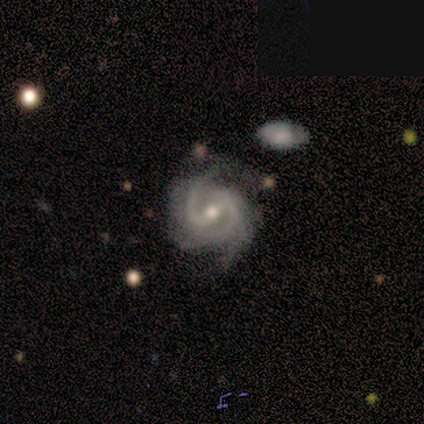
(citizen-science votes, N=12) Q: Smooth or featured?
A: featured or disk (100%)
Q: Edge-on disk?
A: no (100%)
Q: Bar?
A: strong (50%); runner-up: weak (42%)
Q: Spiral arms?
A: yes (100%)
Q: Spiral winding?
A: medium (67%); runner-up: tight (25%)
Q: Spiral arm count?
A: 2 (58%); runner-up: 3 (25%)
Q: Bulge size?
A: moderate (92%); runner-up: small (8%)
Q: Merging?
A: none (58%); runner-up: minor disturbance (42%)